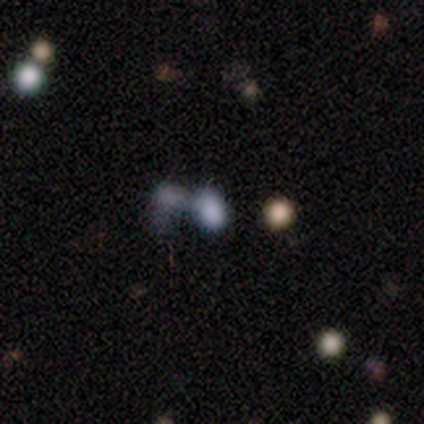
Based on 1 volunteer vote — Smooth or featured? smooth (100%)
How rounded? in between (100%)
Merging? merger (100%)